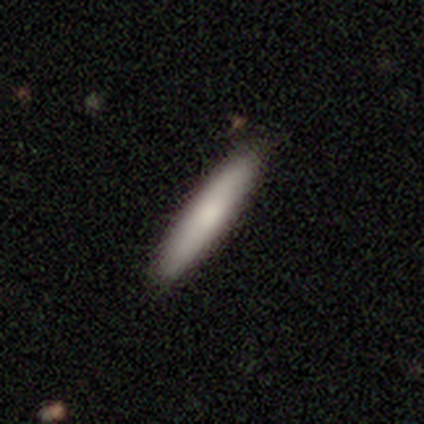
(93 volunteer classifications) Morphology: type=smooth (85%); roundness=cigar-shaped (95%); merging=none (94%).